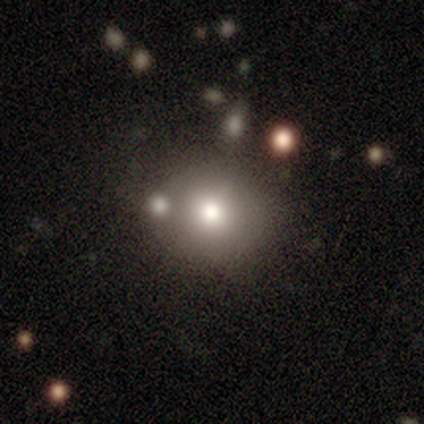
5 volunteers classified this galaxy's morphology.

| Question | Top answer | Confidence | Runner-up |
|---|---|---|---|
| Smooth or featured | smooth | 60% | featured or disk (20%) |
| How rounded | round | 100% | — |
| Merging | none | 50% | minor disturbance (25%) |